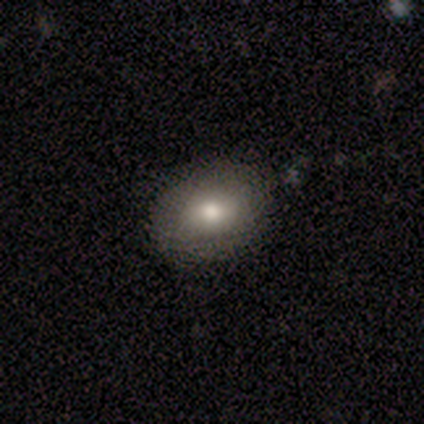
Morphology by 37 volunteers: This appears to be a smooth galaxy with no disk features (68%) that is in between round and cigar-shaped (68%). Merging: none (97%).